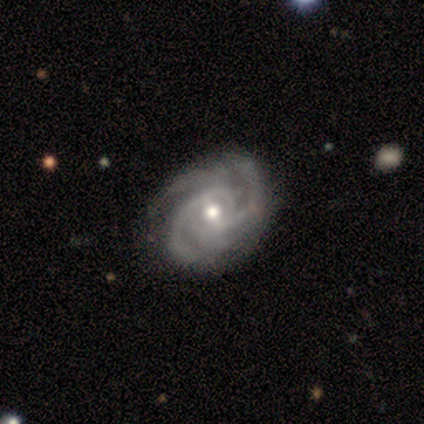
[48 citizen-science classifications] smooth_or_featured: featured or disk (p=0.85) [alt: star or artifact p=0.12]
disk_edge_on: no (p=0.98) [alt: yes p=0.02]
bar: weak (p=0.50) [alt: no p=0.38]
has_spiral_arms: yes (p=1.00)
spiral_winding: tight (p=0.53) [alt: medium p=0.42]
spiral_arm_count: 3 (p=0.42) [alt: 2 p=0.30]
bulge_size: moderate (p=0.70) [alt: small p=0.28]
merging: none (p=0.81) [alt: minor disturbance p=0.14]